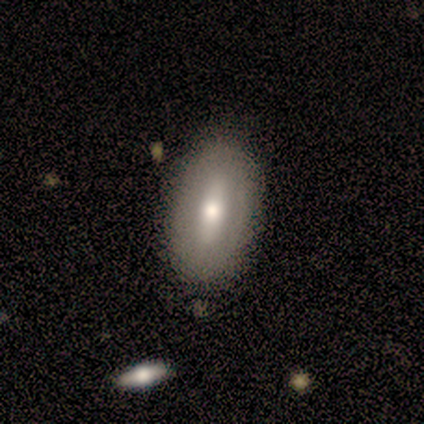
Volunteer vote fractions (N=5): This is likely a smooth galaxy (60%). How rounded: clearly in between (100%). Merging: clearly none (80%).